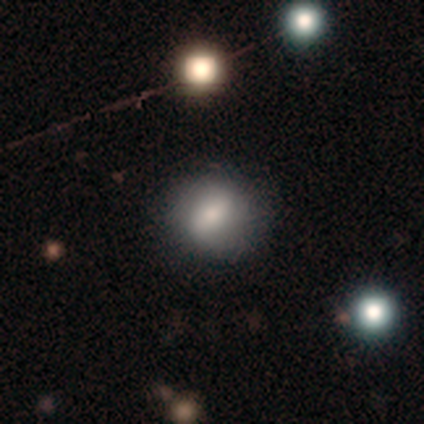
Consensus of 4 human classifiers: A smooth galaxy with no disk features (75%) that is in between round and cigar-shaped (67%). Merging: none (100%).